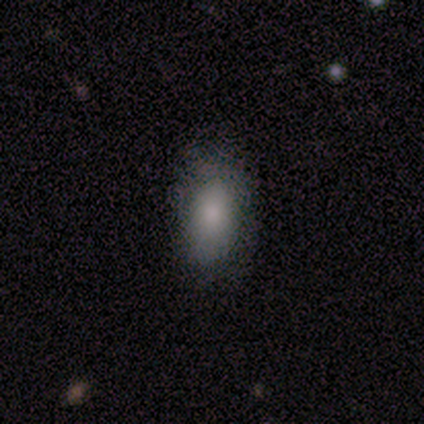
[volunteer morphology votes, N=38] Volunteers were most divided on "merging": none: 61%, minor disturbance: 31%, major disturbance: 8%, merger: 0%. More confident: how rounded — in between (85%); smooth or featured — smooth (71%).